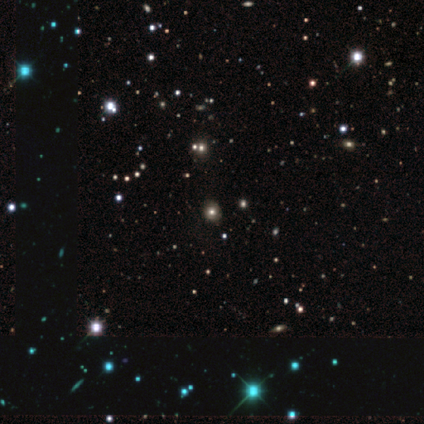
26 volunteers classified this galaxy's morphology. Smooth or featured: smooth — 50% (star or artifact — 46%)
How rounded: round — 92% (cigar-shaped — 8%)
Merging: none — 93% (minor disturbance — 7%)